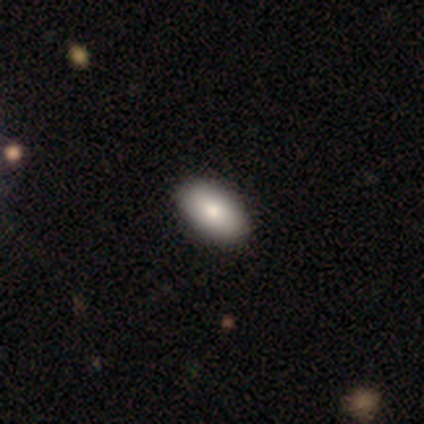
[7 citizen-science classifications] Morphology: type=smooth (100%); roundness=in between (86%); merging=none (100%).